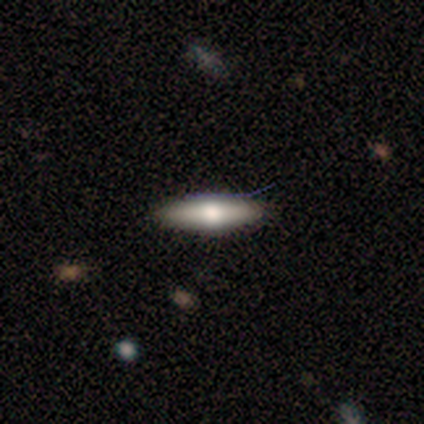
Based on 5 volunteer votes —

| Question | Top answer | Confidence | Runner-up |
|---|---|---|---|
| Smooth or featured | featured or disk | 60% | smooth (40%) |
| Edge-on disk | yes | 100% | — |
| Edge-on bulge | rounded | 100% | — |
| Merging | none | 100% | — |